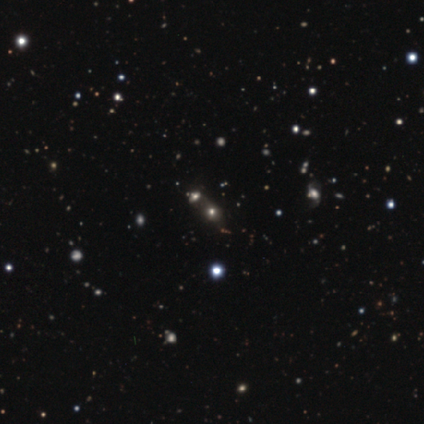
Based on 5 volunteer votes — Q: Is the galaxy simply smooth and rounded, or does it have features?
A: smooth — 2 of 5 (40%, tied with star or artifact).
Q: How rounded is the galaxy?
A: round — 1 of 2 (50%, tied with in between).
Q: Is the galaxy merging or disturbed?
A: merger — 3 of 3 (100%).